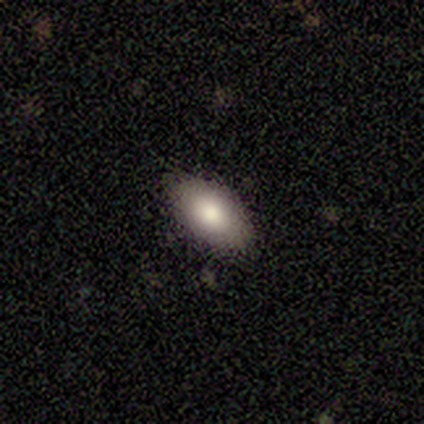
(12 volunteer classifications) This is clearly a smooth galaxy (92%). How rounded: clearly in between (91%). Merging: clearly none (83%).